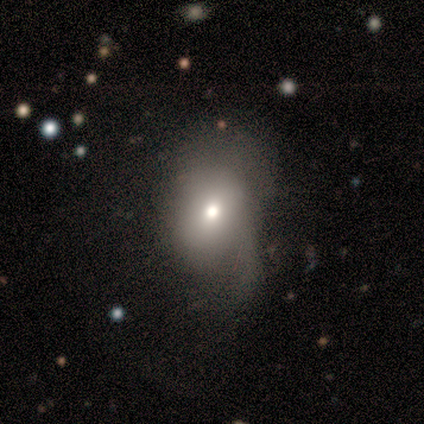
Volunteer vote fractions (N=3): Smooth or featured?
  - smooth: 67% *
  - featured or disk: 33%
  - star or artifact: 0%
How rounded?
  - round: 50% * (tied)
  - in between: 50% * (tied)
  - cigar-shaped: 0%
Merging?
  - minor disturbance: 67% *
  - none: 33%
  - major disturbance: 0%
  - merger: 0%